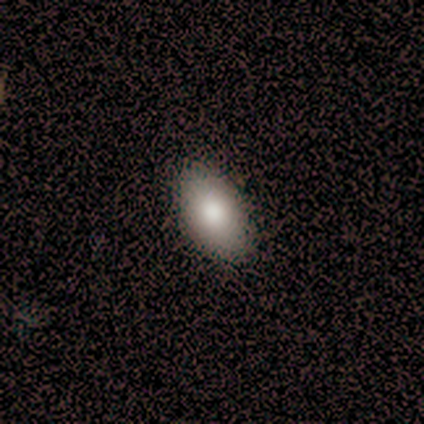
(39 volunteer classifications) Morphology: type=smooth (87%); roundness=in between (91%); merging=none (63%).